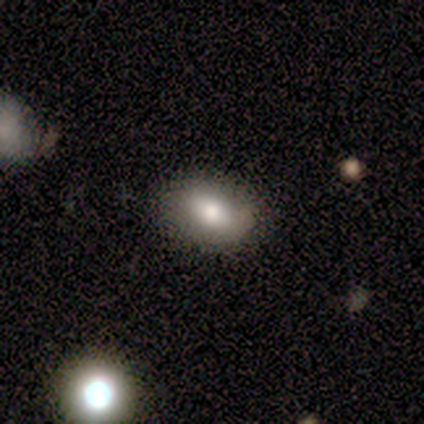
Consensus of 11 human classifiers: Morphology: type=smooth (91%); roundness=in between (90%); merging=none (82%).